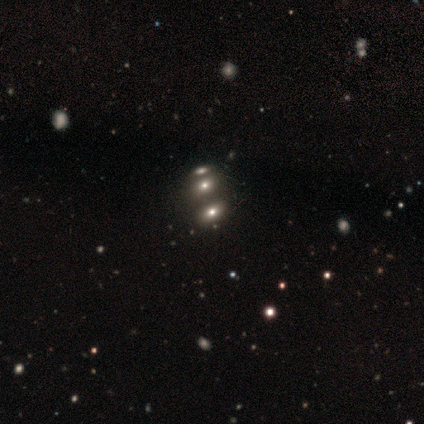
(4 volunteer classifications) Smooth or featured: featured or disk — 50% (tied with star or artifact — 50%)
Edge-on disk: no — 100%
Bar: no — 100%
Spiral arms: no — 100%
Bulge size: large — 50% (tied with none — 50%)
Merging: none — 50% (tied with merger — 50%)